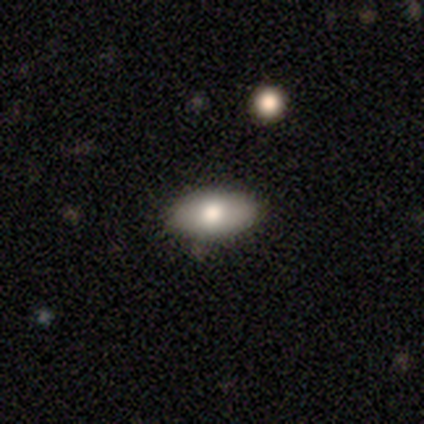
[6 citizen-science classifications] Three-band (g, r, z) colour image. It shows a smooth galaxy with no disk features (100%) that is in between round and cigar-shaped (83%). Merging: none (67%).